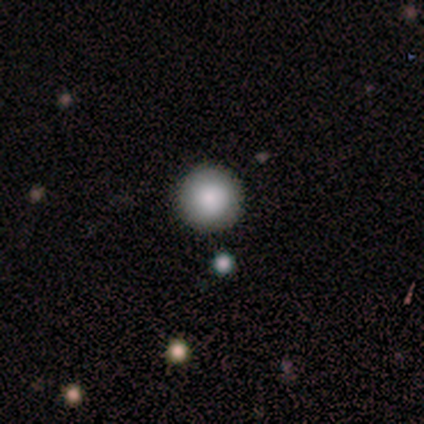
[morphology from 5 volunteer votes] type=smooth (100%); roundness=round (100%); merging=none (100%).